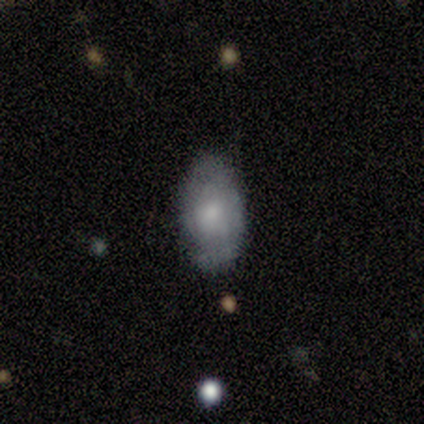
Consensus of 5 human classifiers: smooth-or-featured: featured or disk: 60% | smooth: 20% | star or artifact: 20%
  disk-edge-on: no: 100% | yes: 0%
    bar: no: 100% | strong: 0% | weak: 0%
    has-spiral-arms: no: 67% | yes: 33%
    bulge-size: moderate: 33% (tied) | small: 33% (tied) | none: 33% (tied) | dominant: 0% | large: 0%
  merging: none: 50% (tied) | minor disturbance: 50% (tied) | major disturbance: 0% | merger: 0%